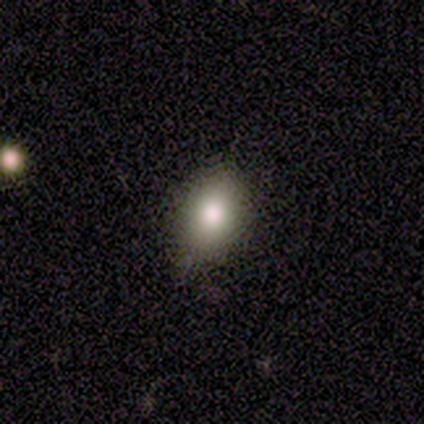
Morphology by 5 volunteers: This is likely a smooth galaxy (60%). How rounded: clearly in between (100%). Merging: clearly none (80%).